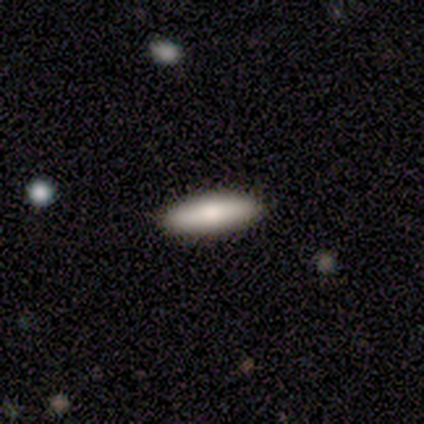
A smooth galaxy with no disk features (88%) that is cigar-shaped (63%).

Vote fractions:
- Smooth or featured? smooth: 88% / featured or disk: 8% / star or artifact: 5%
- How rounded? cigar-shaped: 63% / in between: 37% / round: 0%
- Merging? none: 100% / minor disturbance: 0% / major disturbance: 0% / merger: 0%